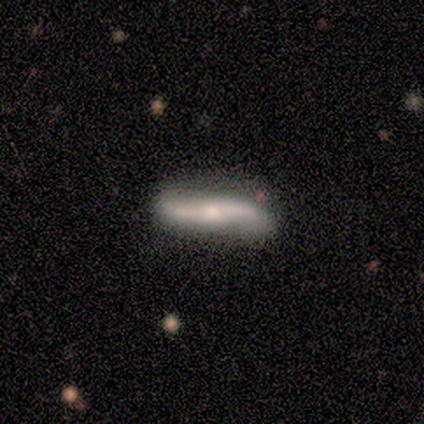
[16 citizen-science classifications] Smooth or featured?
  - featured or disk: 75% *
  - smooth: 25%
  - star or artifact: 0%
Edge-on disk?
  - no: 83% *
  - yes: 17%
Bar?
  - no: 50% *
  - strong: 40%
  - weak: 10%
Spiral arms?
  - yes: 80% *
  - no: 20%
Spiral winding?
  - loose: 100% *
  - tight: 0%
  - medium: 0%
Spiral arm count?
  - 2: 100% *
  - 1: 0%
  - 3: 0%
  - 4: 0%
  - more than 4: 0%
  - can't tell: 0%
Bulge size?
  - small: 50% *
  - moderate: 40%
  - dominant: 10%
  - large: 0%
  - none: 0%
Merging?
  - none: 69% *
  - minor disturbance: 19%
  - major disturbance: 12%
  - merger: 0%